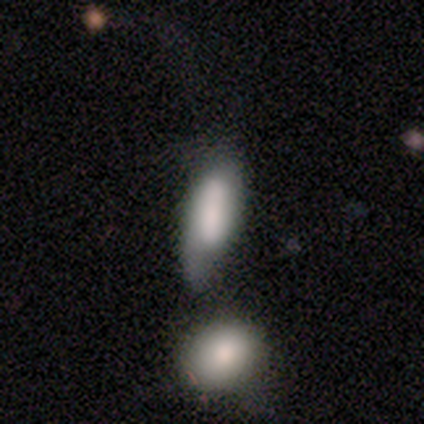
smooth_or_featured: smooth (p=0.70) [alt: featured or disk p=0.22]
how_rounded: in between (p=0.74) [alt: cigar-shaped p=0.26]
merging: minor disturbance (p=0.34) [alt: merger p=0.24]